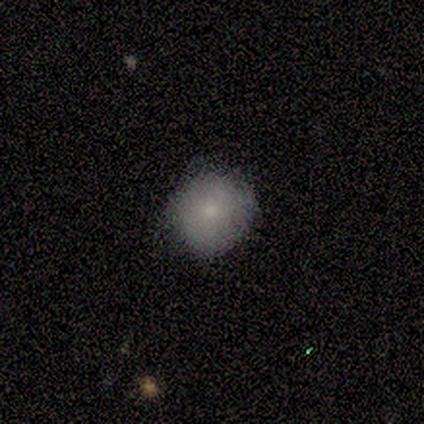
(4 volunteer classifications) Morphology: type=smooth (75%); roundness=round (67%); merging=none (75%).